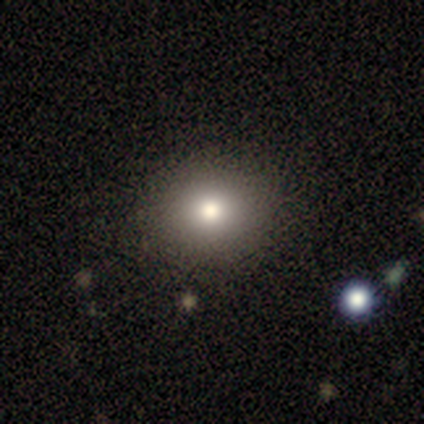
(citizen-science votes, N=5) smooth 80%, star or artifact 20%, featured or disk 0%. Down the decision tree: how rounded — round (75%); merging — none (100%).